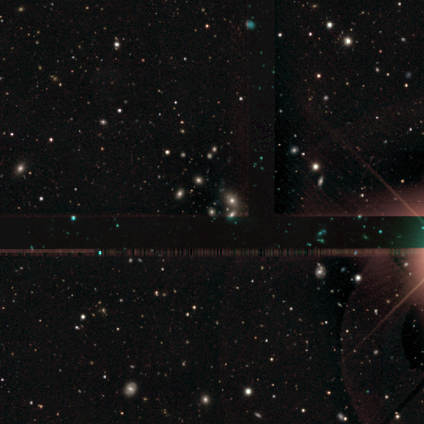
A star or artifact, not a galaxy (78%).